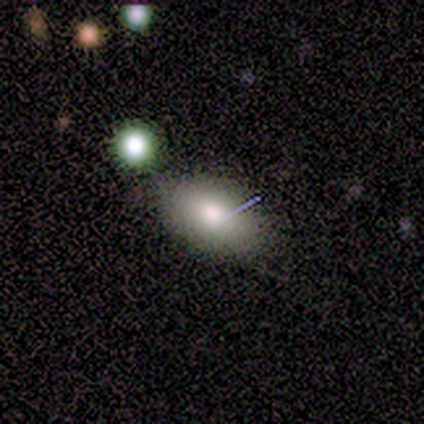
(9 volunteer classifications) This appears to be a smooth galaxy with no disk features (56%) that is in between round and cigar-shaped (100%). Merging: none (89%).